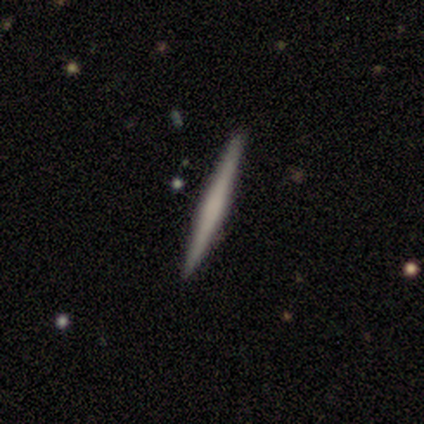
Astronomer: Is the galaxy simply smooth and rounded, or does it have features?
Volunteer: featured or disk — 67%.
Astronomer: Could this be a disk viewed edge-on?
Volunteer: yes — 100%.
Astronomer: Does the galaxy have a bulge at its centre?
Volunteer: none — 83%.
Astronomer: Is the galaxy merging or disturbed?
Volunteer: none — 100%.